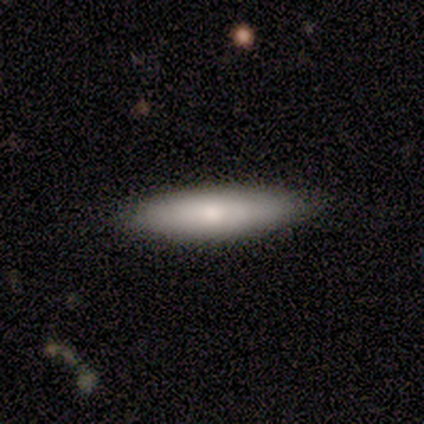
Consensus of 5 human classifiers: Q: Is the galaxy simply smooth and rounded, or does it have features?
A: smooth — 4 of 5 (80%).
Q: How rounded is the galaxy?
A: in between — 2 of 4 (50%, tied with cigar-shaped).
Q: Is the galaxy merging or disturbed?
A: none — 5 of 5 (100%).